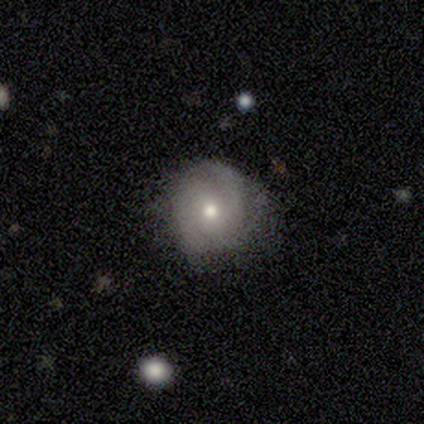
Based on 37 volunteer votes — Smooth or featured? featured or disk (57%)
Edge-on disk? no (95%)
Bar? no (80%)
Spiral arms? yes (85%)
Spiral winding? tight (47%)
Spiral arm count? 3 (47%)
Bulge size? moderate (85%)
Merging? none (74%)